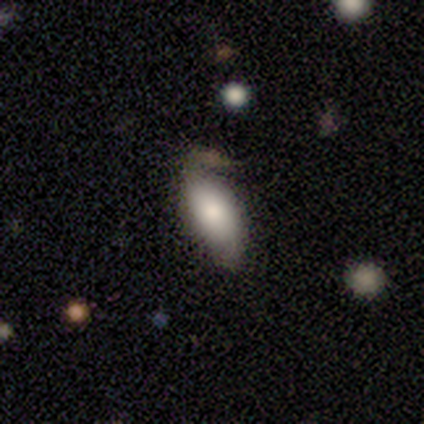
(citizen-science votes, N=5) A smooth galaxy with no disk features (80%) that is in between round and cigar-shaped (100%).

Vote fractions:
- Smooth or featured? smooth: 80% / featured or disk: 20% / star or artifact: 0%
- How rounded? in between: 100% / round: 0% / cigar-shaped: 0%
- Merging? none: 80% / major disturbance: 20% / minor disturbance: 0% / merger: 0%